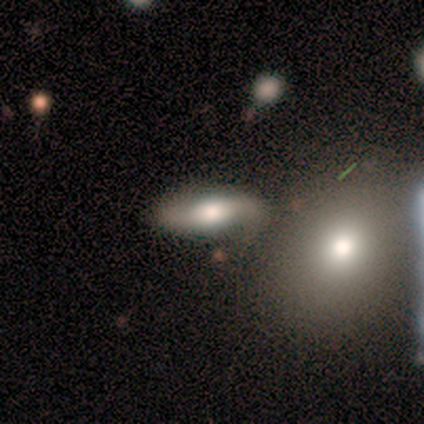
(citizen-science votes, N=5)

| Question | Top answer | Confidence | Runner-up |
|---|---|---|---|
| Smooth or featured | smooth | 40% | tied: featured or disk (40%) |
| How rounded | in between | 100% | — |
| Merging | none | 75% | merger (25%) |